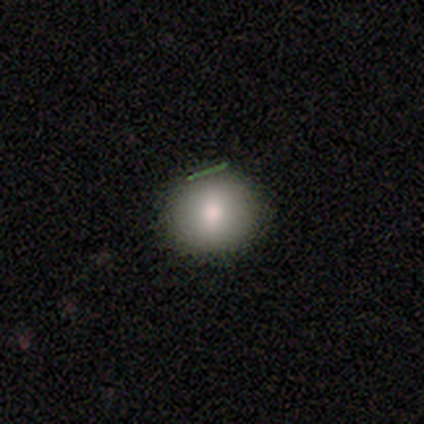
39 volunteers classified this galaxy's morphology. Q: Smooth or featured?
A: smooth (82%); runner-up: featured or disk (15%)
Q: How rounded?
A: round (81%); runner-up: in between (19%)
Q: Merging?
A: none (89%); runner-up: minor disturbance (11%)